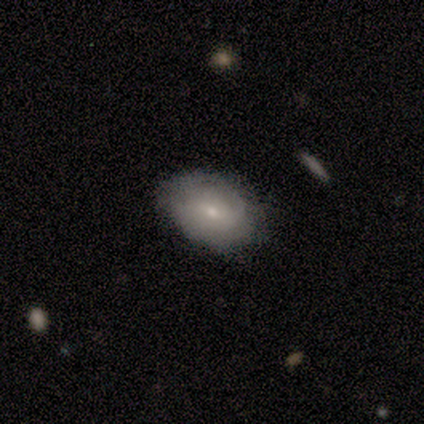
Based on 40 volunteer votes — A featured or disk galaxy (48%) with no bar (59%), tight (75%) spiral arms (71%) and a small central bulge (53%). Merging: none (59%).